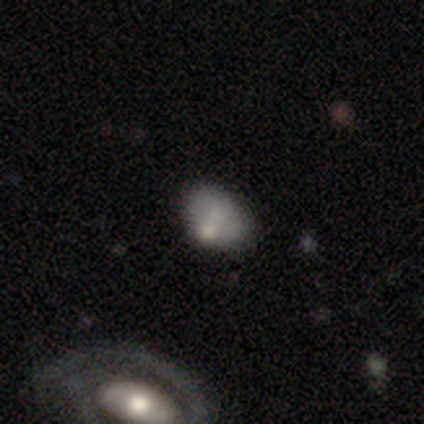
Q: Smooth or featured?
A: smooth (100%)
Q: How rounded?
A: in between (80%); runner-up: round (20%)
Q: Merging?
A: none (40%); tied with: merger (40%)